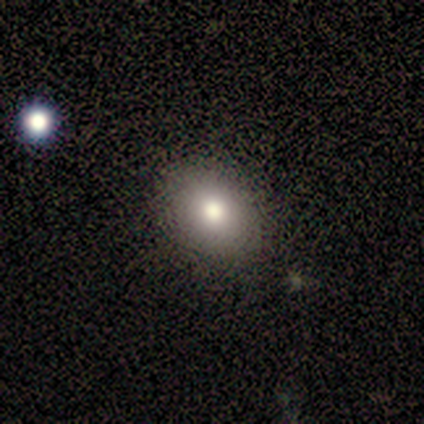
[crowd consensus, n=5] Smooth or featured? smooth (80%)
How rounded? round (100%)
Merging? none (100%)